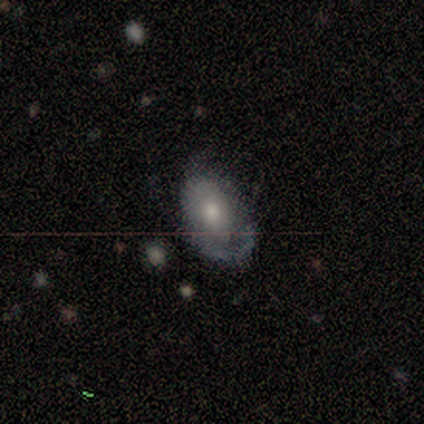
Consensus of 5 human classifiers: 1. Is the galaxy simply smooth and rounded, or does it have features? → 80% featured or disk, 20% smooth, 0% star or artifact.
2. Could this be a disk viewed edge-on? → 100% no, 0% yes.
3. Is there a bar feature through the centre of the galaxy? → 100% no, 0% strong, 0% weak.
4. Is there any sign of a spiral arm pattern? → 50% yes (tied), 50% no (tied).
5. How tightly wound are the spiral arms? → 50% tight (tied), 50% medium (tied), 0% loose.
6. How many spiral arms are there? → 100% 1, 0% 2, 0% 3, 0% 4, 0% more than 4, 0% can't tell.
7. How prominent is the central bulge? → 75% moderate, 25% small, 0% dominant, 0% large, 0% none.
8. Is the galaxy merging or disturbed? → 40% none (tied), 40% minor disturbance (tied), 20% major disturbance, 0% merger.